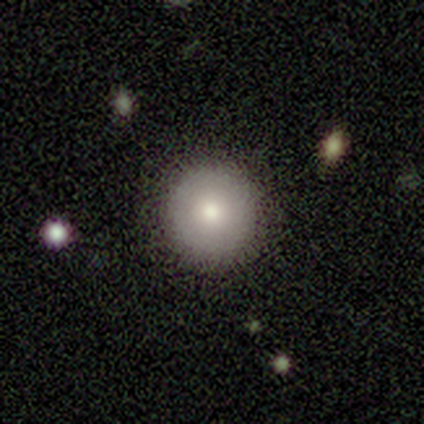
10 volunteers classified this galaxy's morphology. type=smooth (70%); roundness=round (100%); merging=none (100%).